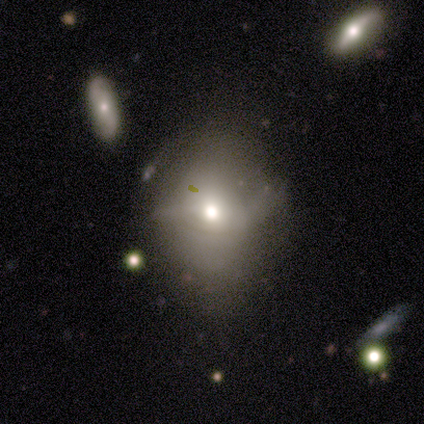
Smooth or featured?
  - smooth: 50% *
  - featured or disk: 37%
  - star or artifact: 13%
How rounded?
  - round: 63% *
  - in between: 37%
  - cigar-shaped: 0%
Merging?
  - none: 64% *
  - minor disturbance: 21%
  - major disturbance: 15%
  - merger: 0%